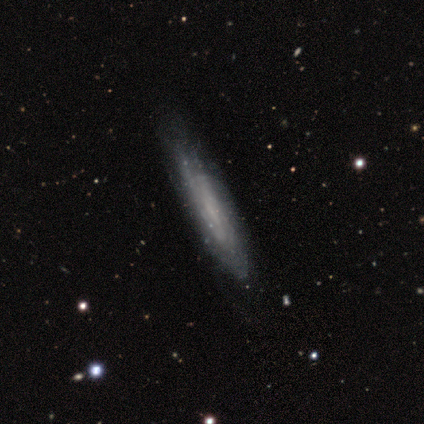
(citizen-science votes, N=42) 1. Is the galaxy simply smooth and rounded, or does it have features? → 81% featured or disk, 19% smooth, 0% star or artifact.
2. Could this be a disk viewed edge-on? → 56% no, 44% yes.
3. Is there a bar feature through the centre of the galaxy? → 42% weak (tied), 42% no (tied), 16% strong.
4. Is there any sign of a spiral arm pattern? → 79% yes, 21% no.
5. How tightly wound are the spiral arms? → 67% tight, 27% medium, 7% loose.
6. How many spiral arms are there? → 73% can't tell, 13% 2, 7% 1, 7% 4, 0% 3, 0% more than 4.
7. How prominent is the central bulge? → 53% none, 37% small, 5% dominant, 5% moderate, 0% large.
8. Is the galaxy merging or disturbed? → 45% none, 14% minor disturbance, 7% major disturbance, 0% merger.